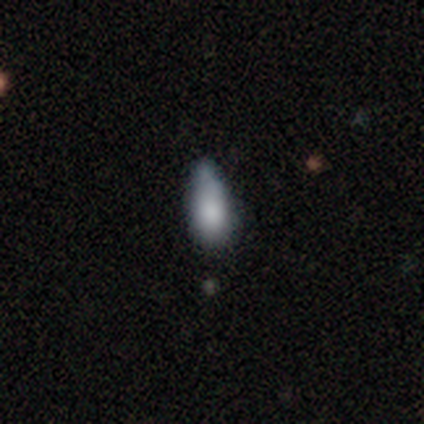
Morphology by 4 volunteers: Volunteers were most divided on "smooth or featured": smooth: 50%, featured or disk: 25%, star or artifact: 25%. More confident: how rounded — in between (100%); merging — none (100%).